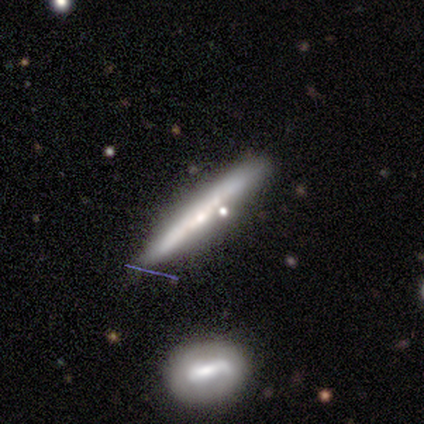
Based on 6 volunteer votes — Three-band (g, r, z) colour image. It shows a smooth galaxy with no disk features (50%, tied with featured or disk) that is cigar-shaped (100%). Merging: none (83%).